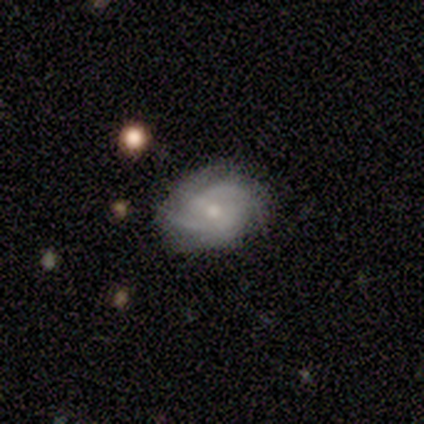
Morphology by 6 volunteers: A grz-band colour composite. It shows a featured or disk galaxy (83%) with a weak bar (80%), 2 (60%) tight (60%) spiral arms (100%) and a moderate central bulge (80%). Merging: none (67%).